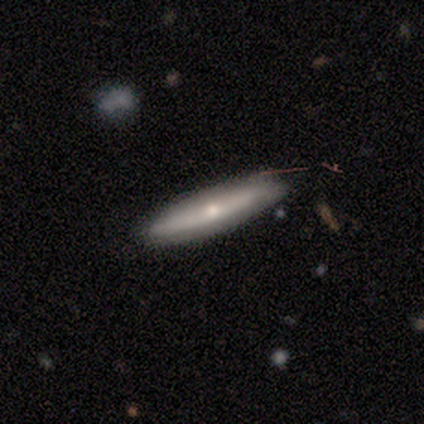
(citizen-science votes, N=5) Smooth or featured: featured or disk — 60% (smooth — 40%)
Edge-on disk: no — 67% (yes — 33%)
Bar: strong — 50% (tied with no — 50%)
Spiral arms: yes — 50% (tied with no — 50%)
Spiral winding: tight — 100%
Spiral arm count: can't tell — 100%
Bulge size: small — 100%
Merging: none — 100%